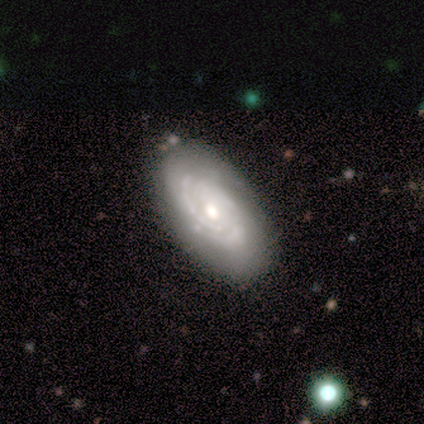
A featured or disk galaxy (75%) with a strong bar (33%, tied with weak and no), 3 (100%) medium (67%) spiral arms (100%) and a moderate central bulge (100%).

Vote fractions:
- Smooth or featured? featured or disk: 75% / star or artifact: 25% / smooth: 0%
- Edge-on disk? no: 100% / yes: 0%
- Bar? strong: 33% (tied) / weak: 33% (tied) / no: 33% (tied)
- Spiral arms? yes: 100% / no: 0%
- Spiral winding? medium: 67% / tight: 33% / loose: 0%
- Spiral arm count? 3: 100% / 1: 0% / 2: 0% / 4: 0% / more than 4: 0% / can't tell: 0%
- Bulge size? moderate: 100% / dominant: 0% / large: 0% / small: 0% / none: 0%
- Merging? none: 100% / minor disturbance: 0% / major disturbance: 0% / merger: 0%